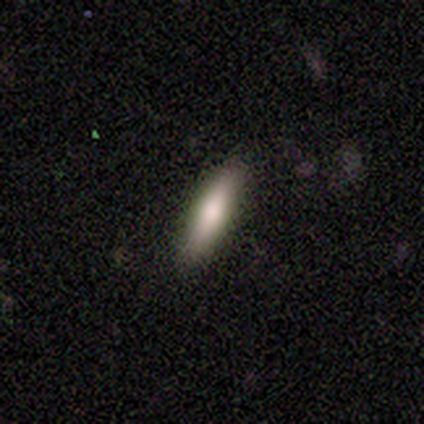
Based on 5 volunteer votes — smooth-or-featured: smooth: 80% | featured or disk: 20% | star or artifact: 0%
  how-rounded: cigar-shaped: 100% | round: 0% | in between: 0%
  merging: none: 100% | minor disturbance: 0% | major disturbance: 0% | merger: 0%